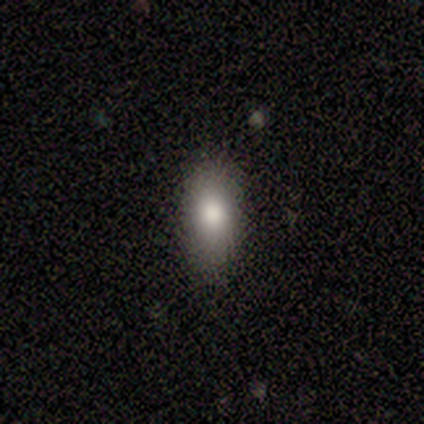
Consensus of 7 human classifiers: smooth_or_featured: smooth (p=0.86) [alt: star or artifact p=0.14]
how_rounded: in between (p=0.83) [alt: cigar-shaped p=0.17]
merging: none (p=0.83) [alt: major disturbance p=0.17]